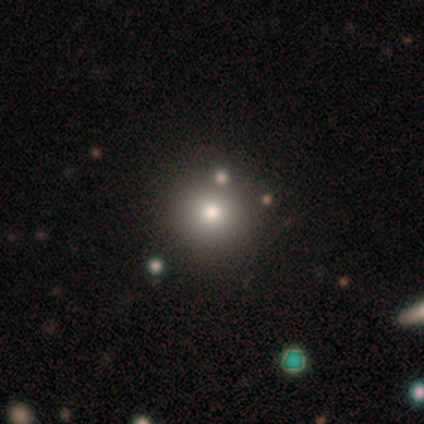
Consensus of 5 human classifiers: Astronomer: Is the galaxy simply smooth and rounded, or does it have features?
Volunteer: smooth — 60%.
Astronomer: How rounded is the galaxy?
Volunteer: round — 67%.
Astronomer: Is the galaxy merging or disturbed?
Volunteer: none — 100%.